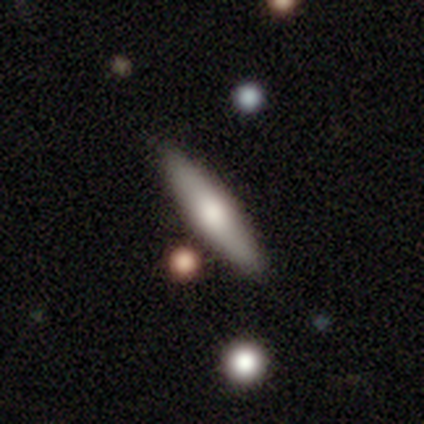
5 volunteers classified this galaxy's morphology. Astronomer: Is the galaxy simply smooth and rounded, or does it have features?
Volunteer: smooth — 100%.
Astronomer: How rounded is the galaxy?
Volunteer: cigar-shaped — 100%.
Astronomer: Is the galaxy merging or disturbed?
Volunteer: none — 60% (runner-up: minor disturbance, 40%).